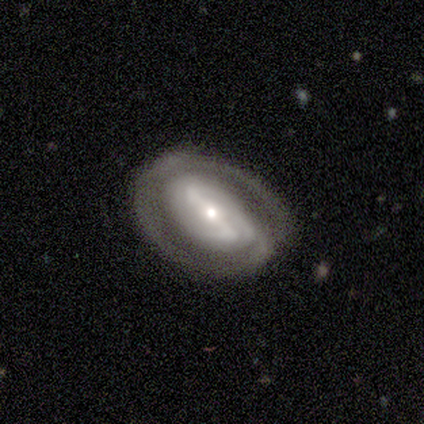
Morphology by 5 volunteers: type=featured or disk (60%); edge-on=no (100%); bar=strong (67%); spiral arms=yes (67%); winding=medium (100%); arm count=2 (50%, tied with can't tell); bulge=small (67%); merging=none (75%).